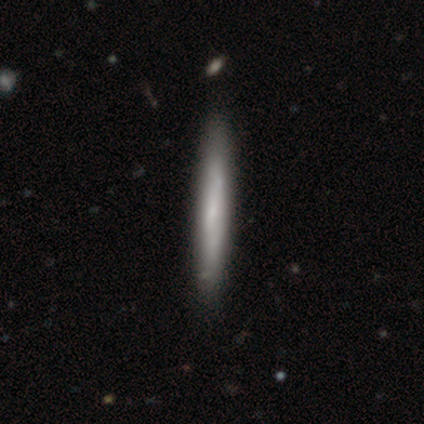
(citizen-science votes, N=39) Smooth or featured: smooth — 56% (featured or disk — 41%)
How rounded: cigar-shaped — 100%
Merging: none — 68% (minor disturbance — 8%)